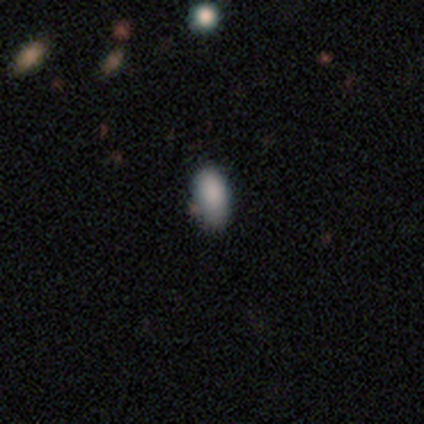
Morphology: type=smooth (100%); roundness=in between (75%); merging=none (75%).